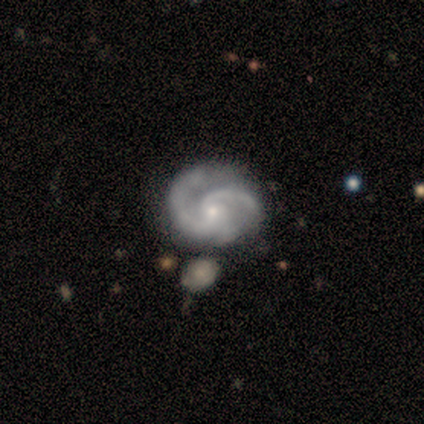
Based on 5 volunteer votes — Volunteers were most divided on "spiral winding": tight: 75%, medium: 25%, loose: 0%. More confident: smooth or featured — featured or disk (100%); edge-on disk — no (100%); bar — no (100%); spiral arm count — 2 (100%); spiral arms — yes (80%); bulge size — small (80%); merging — none (80%).